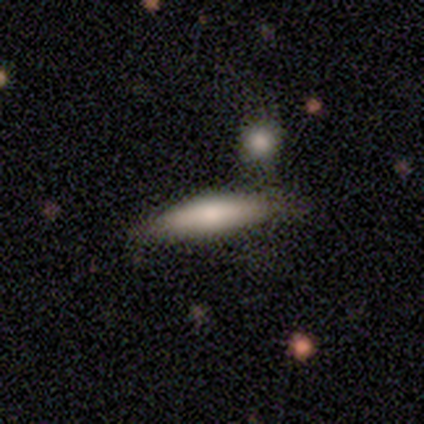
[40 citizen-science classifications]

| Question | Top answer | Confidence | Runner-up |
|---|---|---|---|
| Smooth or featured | smooth | 65% | featured or disk (32%) |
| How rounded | cigar-shaped | 88% | in between (12%) |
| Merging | none | 74% | minor disturbance (15%) |